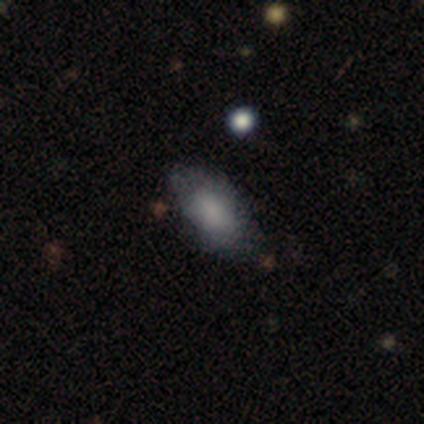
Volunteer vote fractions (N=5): This appears to be a smooth galaxy with no disk features (80%) that is in between round and cigar-shaped (100%). Merging: none (60%).